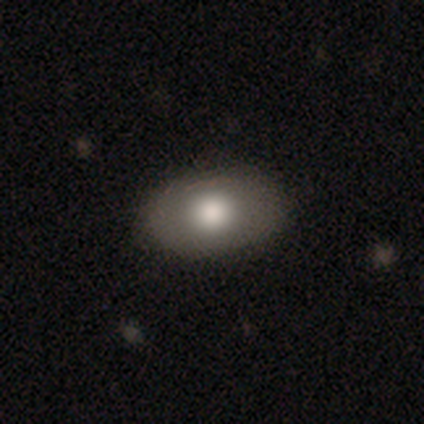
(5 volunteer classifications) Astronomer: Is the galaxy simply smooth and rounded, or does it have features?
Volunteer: smooth — 60% (runner-up: featured or disk, 40%).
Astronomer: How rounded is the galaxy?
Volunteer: in between — 100%.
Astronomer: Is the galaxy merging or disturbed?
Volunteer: none — 40%, tied with minor disturbance at 40%.